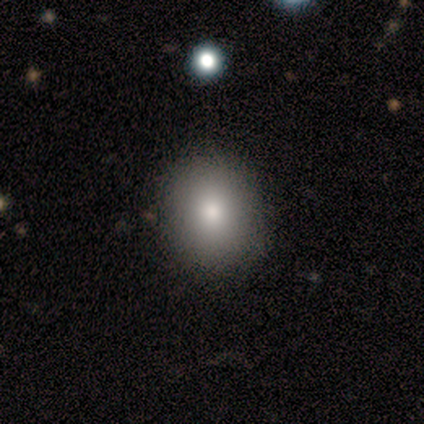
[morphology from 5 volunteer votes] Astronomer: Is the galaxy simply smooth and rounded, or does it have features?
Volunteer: smooth — 80%.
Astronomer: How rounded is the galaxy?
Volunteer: round — 75%.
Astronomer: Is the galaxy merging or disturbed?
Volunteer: none — 100%.